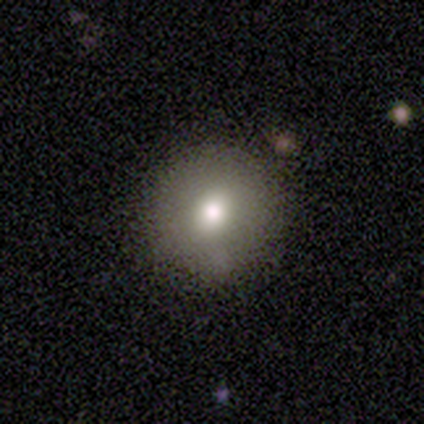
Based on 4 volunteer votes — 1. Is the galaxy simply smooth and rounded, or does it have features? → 75% smooth, 25% featured or disk, 0% star or artifact.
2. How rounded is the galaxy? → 67% round, 33% in between, 0% cigar-shaped.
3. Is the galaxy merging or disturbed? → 100% none, 0% minor disturbance, 0% major disturbance, 0% merger.